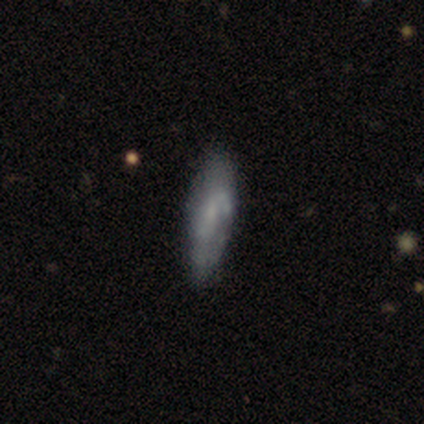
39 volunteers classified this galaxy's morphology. Smooth or featured: featured or disk — 54% (smooth — 41%)
Edge-on disk: no — 71% (yes — 29%)
Bar: no — 73% (weak — 27%)
Spiral arms: no — 53% (yes — 47%)
Bulge size: none — 47% (small — 40%)
Merging: none — 78% (minor disturbance — 16%)